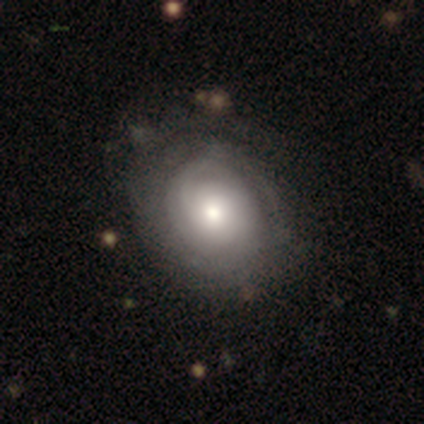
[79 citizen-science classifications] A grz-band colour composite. It shows a featured or disk galaxy (66%) with no bar (82%), tight (63%) spiral arms (82%) and a moderate central bulge (60%). Merging: none (39%).